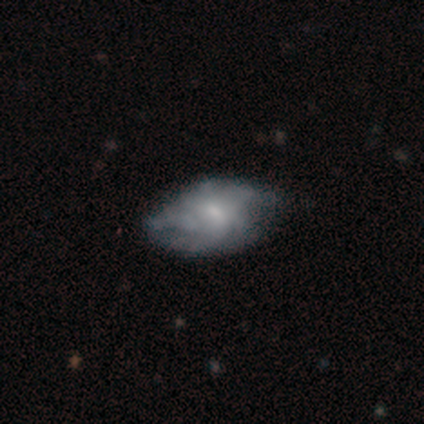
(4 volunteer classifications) This is clearly a smooth galaxy (100%). How rounded: clearly in between (100%). Merging: possibly none (50%).